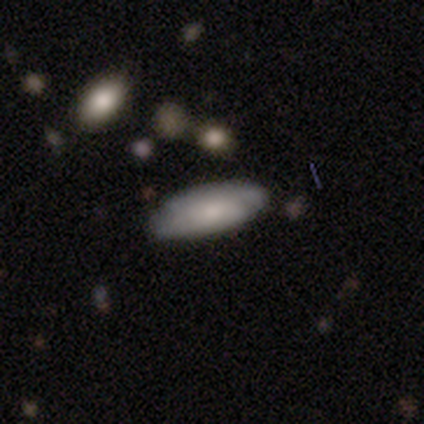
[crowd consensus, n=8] Smooth or featured?
  - smooth: 50% *
  - featured or disk: 38%
  - star or artifact: 12%
How rounded?
  - in between: 100% *
  - round: 0%
  - cigar-shaped: 0%
Merging?
  - none: 86% *
  - merger: 14%
  - minor disturbance: 0%
  - major disturbance: 0%